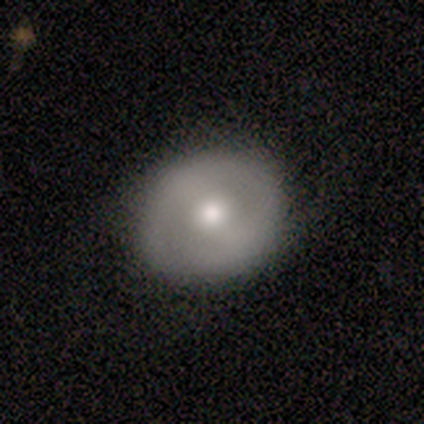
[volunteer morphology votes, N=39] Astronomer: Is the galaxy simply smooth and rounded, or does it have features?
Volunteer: smooth — 54% (runner-up: featured or disk, 36%).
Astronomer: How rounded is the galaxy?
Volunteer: round — 90%.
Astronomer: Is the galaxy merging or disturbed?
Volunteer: none — 89%.